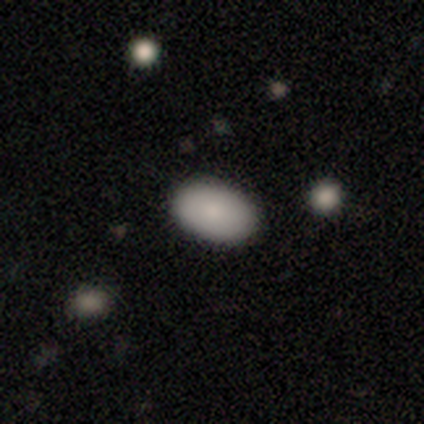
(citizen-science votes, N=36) Smooth or featured? smooth (86%)
How rounded? in between (90%)
Merging? none (88%)